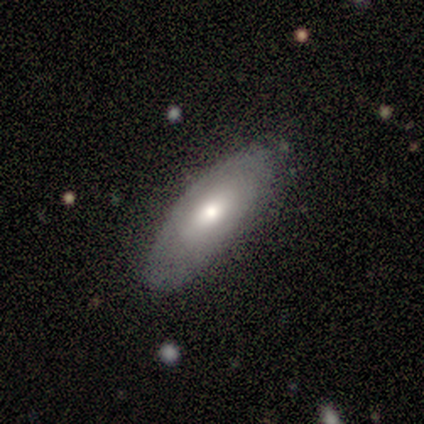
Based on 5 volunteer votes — Volunteers were most divided on "merging": none: 60%, minor disturbance: 40%, major disturbance: 0%, merger: 0%. More confident: smooth or featured — smooth (80%); how rounded — in between (75%).